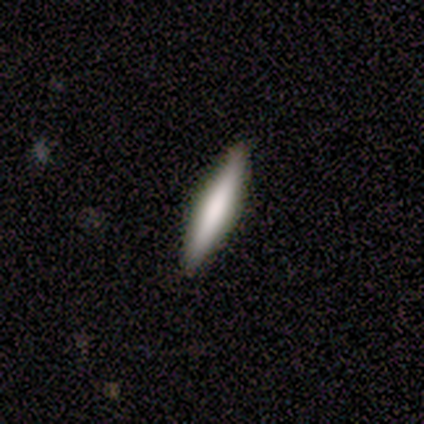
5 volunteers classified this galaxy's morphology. This appears to be a smooth galaxy with no disk features (60%) that is cigar-shaped (100%). Merging: none (100%).